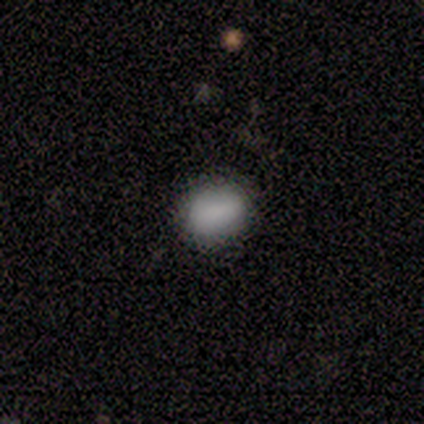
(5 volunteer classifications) smooth 100%, featured or disk 0%, star or artifact 0%. Down the decision tree: how rounded — in between (60%); merging — none (100%).